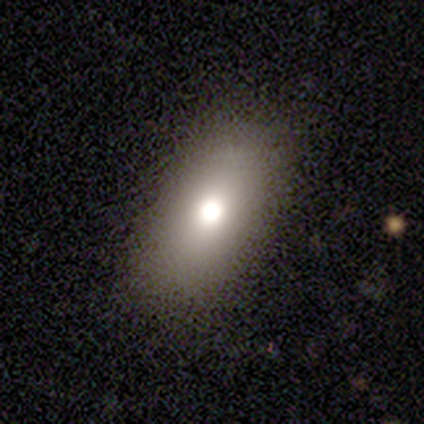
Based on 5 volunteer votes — Smooth or featured? 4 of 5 (80%) said smooth. How rounded? 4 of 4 (100%) said in between. Merging? 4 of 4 (100%) said none.